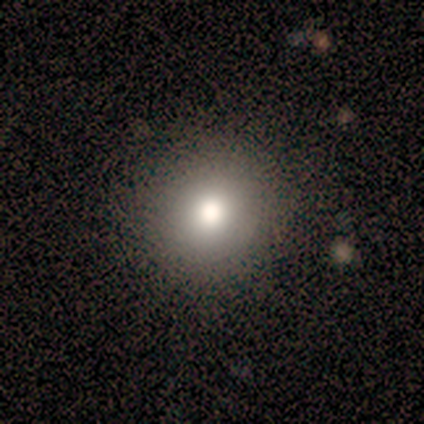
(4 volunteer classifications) This is clearly a smooth galaxy (100%). How rounded: clearly round (100%). Merging: clearly none (100%).